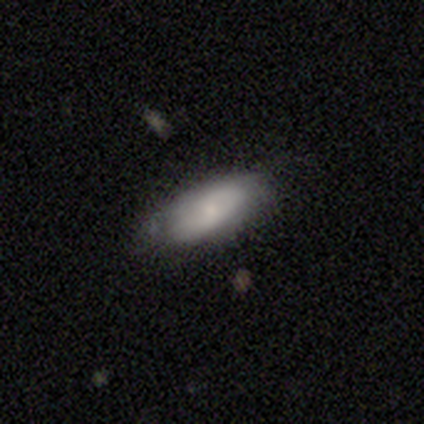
smooth_or_featured: smooth (p=0.51) [alt: featured or disk p=0.44]
how_rounded: in between (p=0.90) [alt: cigar-shaped p=0.10]
merging: none (p=0.65) [alt: minor disturbance p=0.32]